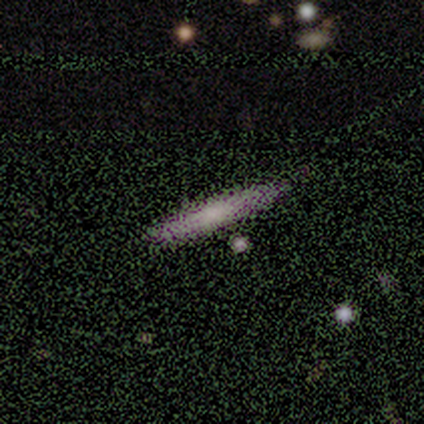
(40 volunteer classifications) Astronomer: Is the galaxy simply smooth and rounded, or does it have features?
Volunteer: smooth — 50% (runner-up: featured or disk, 40%).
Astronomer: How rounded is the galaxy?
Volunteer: cigar-shaped — 100%.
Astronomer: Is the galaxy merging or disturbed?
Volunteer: none — 75%.